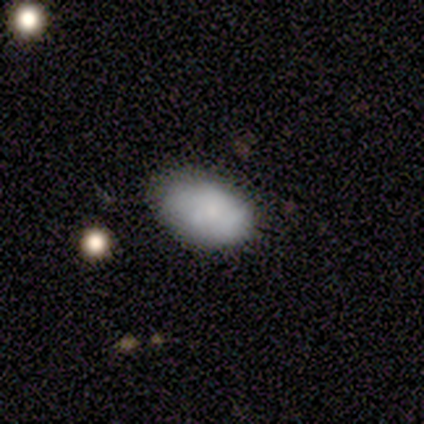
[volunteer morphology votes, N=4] Smooth or featured: smooth — 100%
How rounded: in between — 100%
Merging: none — 75% (minor disturbance — 25%)